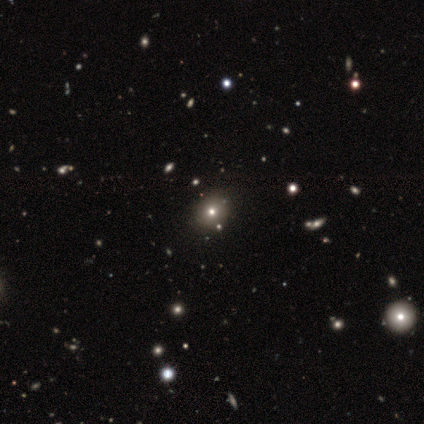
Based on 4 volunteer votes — This appears to be a smooth galaxy with no disk features (75%) that is round (67%). Merging: none (67%).